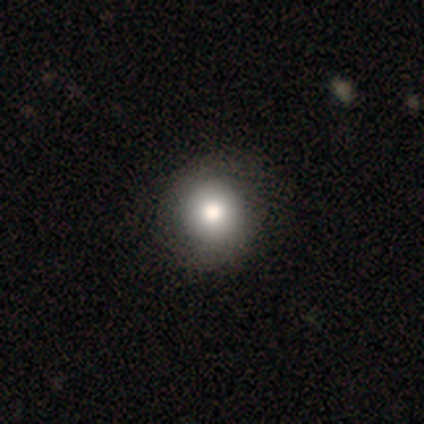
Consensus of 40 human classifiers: This appears to be a smooth galaxy with no disk features (85%) that is round (97%). Merging: none (47%).